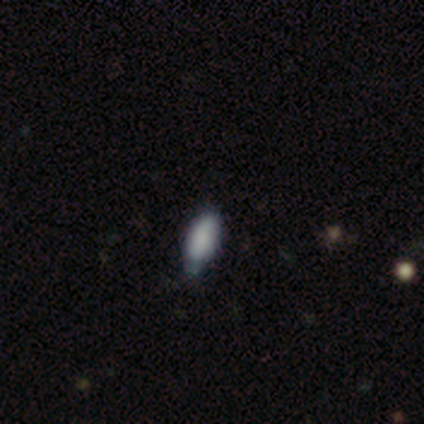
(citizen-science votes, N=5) Smooth or featured? smooth (80%)
How rounded? in between (75%)
Merging? none (60%)